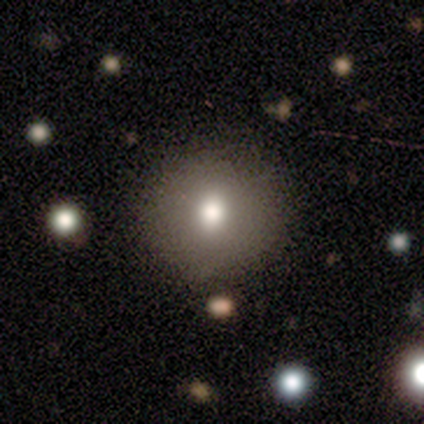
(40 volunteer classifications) A smooth galaxy with no disk features (70%) that is round (89%). Merging: none (90%).